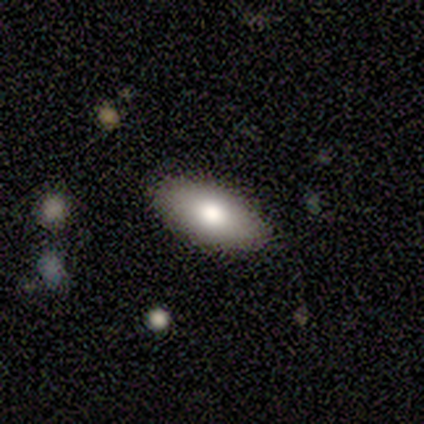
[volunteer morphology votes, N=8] smooth_or_featured: smooth (p=1.00)
how_rounded: in between (p=1.00)
merging: none (p=1.00)